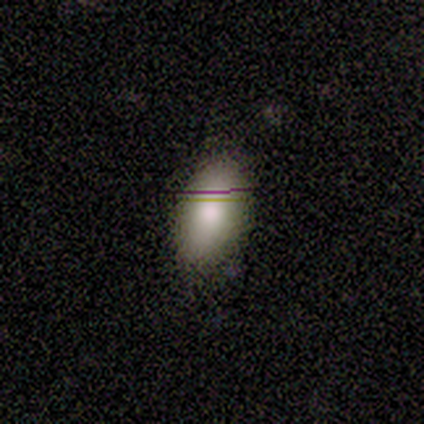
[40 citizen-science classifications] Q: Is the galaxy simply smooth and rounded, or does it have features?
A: smooth — 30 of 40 (75%).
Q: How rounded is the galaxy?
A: in between — 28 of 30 (93%).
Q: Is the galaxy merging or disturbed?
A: none — 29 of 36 (81%).